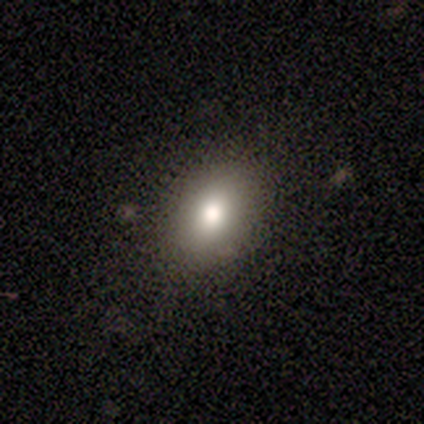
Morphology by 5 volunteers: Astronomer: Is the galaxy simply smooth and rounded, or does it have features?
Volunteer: smooth — 100%.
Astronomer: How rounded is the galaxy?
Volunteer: in between — 80%.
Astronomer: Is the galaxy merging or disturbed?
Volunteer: none — 100%.